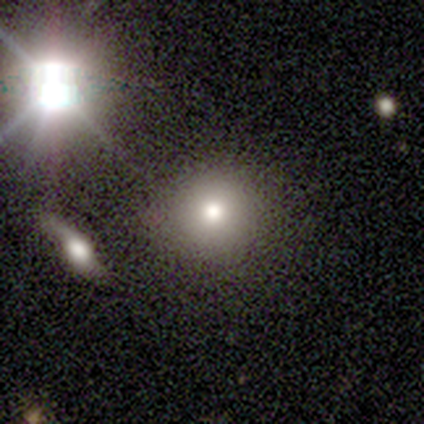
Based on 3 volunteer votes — Consensus on every question: smooth or featured — smooth (100%); how rounded — round (100%); merging — none (100%).